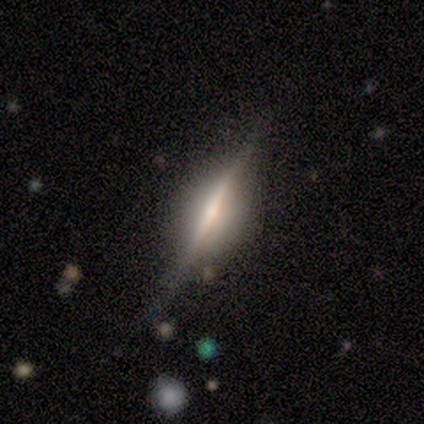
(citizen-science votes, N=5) Volunteers were most divided on "smooth or featured": featured or disk: 60%, smooth: 40%, star or artifact: 0%. More confident: edge-on disk — yes (100%); edge-on bulge — rounded (100%); merging — none (100%).